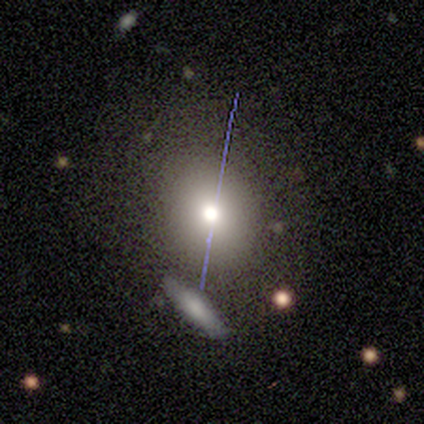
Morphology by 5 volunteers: This appears to be a smooth galaxy with no disk features (60%) that is in between round and cigar-shaped (100%). Merging: none (50%).